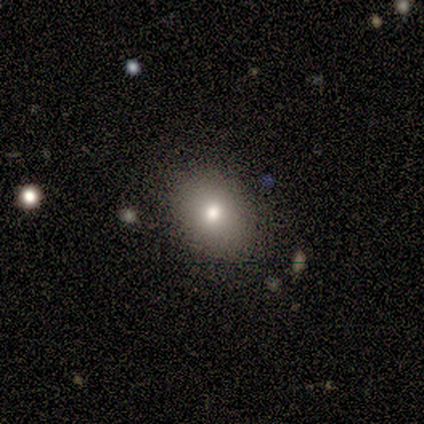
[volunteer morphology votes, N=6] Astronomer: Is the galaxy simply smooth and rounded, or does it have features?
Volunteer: smooth — 83%.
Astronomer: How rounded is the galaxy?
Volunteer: in between — 60% (runner-up: round, 40%).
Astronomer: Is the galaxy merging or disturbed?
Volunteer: none — 80%.